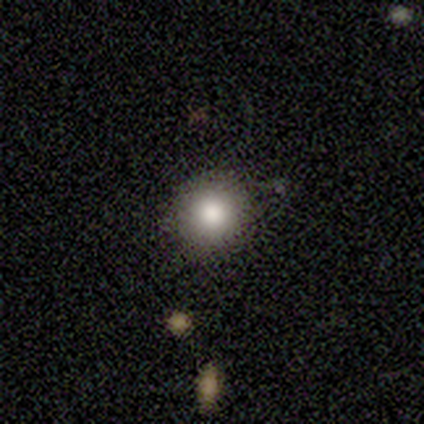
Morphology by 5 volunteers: Smooth or featured?
  - smooth: 100% *
  - featured or disk: 0%
  - star or artifact: 0%
How rounded?
  - round: 100% *
  - in between: 0%
  - cigar-shaped: 0%
Merging?
  - none: 100% *
  - minor disturbance: 0%
  - major disturbance: 0%
  - merger: 0%